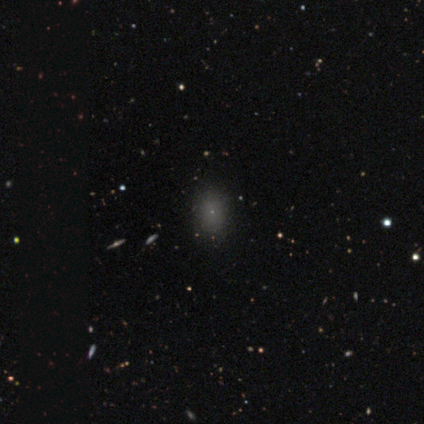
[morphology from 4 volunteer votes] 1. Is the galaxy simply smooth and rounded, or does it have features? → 75% star or artifact, 25% smooth, 0% featured or disk.